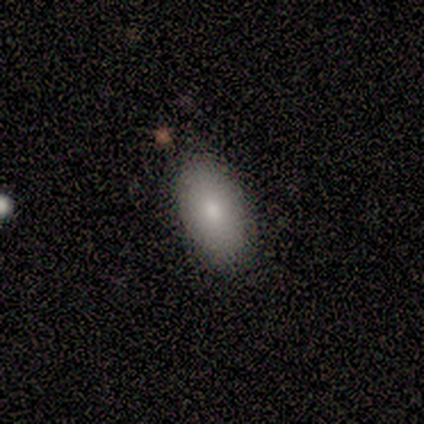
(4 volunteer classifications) A smooth galaxy with no disk features (100%) that is in between round and cigar-shaped (100%).

Vote fractions:
- Smooth or featured? smooth: 100% / featured or disk: 0% / star or artifact: 0%
- How rounded? in between: 100% / round: 0% / cigar-shaped: 0%
- Merging? none: 100% / minor disturbance: 0% / major disturbance: 0% / merger: 0%